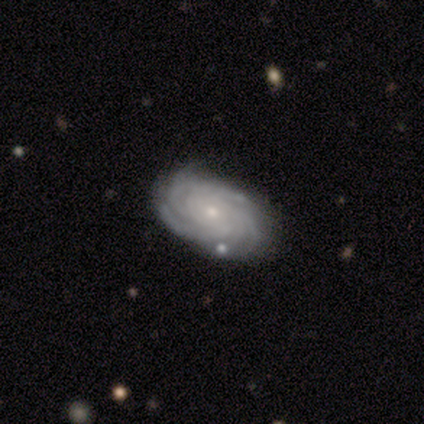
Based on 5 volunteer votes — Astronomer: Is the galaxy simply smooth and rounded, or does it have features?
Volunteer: featured or disk — 60% (runner-up: smooth, 40%).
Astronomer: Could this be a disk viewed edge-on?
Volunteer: no — 100%.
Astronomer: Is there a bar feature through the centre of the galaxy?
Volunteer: no — 100%.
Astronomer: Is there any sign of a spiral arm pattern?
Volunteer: yes — 100%.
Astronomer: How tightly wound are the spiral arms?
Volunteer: tight — 100%.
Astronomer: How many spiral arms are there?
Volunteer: more than 4 — 67%.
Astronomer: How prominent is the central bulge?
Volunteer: small — 100%.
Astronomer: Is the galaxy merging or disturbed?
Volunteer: none — 60% (runner-up: minor disturbance, 40%).